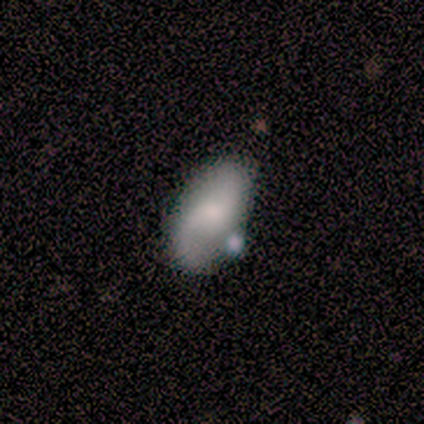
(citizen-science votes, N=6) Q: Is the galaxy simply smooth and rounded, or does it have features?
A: featured or disk — 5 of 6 (83%).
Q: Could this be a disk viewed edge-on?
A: no — 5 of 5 (100%).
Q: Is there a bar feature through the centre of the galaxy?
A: no — 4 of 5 (80%).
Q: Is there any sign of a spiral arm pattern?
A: yes — 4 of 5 (80%).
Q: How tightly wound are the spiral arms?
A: loose — 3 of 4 (75%).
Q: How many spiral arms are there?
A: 2 — 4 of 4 (100%).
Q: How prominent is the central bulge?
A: moderate — 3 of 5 (60%).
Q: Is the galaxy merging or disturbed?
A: none — 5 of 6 (83%).